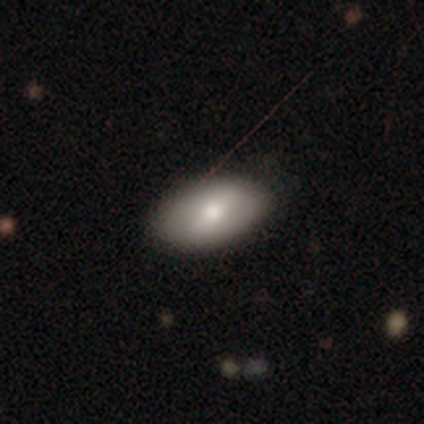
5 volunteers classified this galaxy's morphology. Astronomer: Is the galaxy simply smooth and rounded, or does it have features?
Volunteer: smooth — 100%.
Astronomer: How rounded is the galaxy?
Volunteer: in between — 80%.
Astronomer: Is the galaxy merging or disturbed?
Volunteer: none — 60% (runner-up: minor disturbance, 40%).